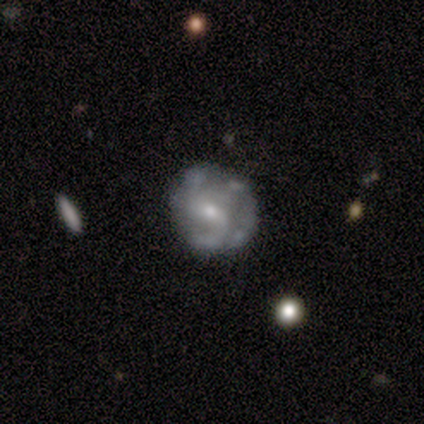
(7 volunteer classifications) featured or disk 86%, smooth 14%, star or artifact 0%. Down the decision tree: edge-on disk — no (100%); bar — weak (100%); spiral arms — yes (67%); spiral arm count — 2 (50%); spiral winding — loose (50%); bulge size — small (67%); merging — none (71%).